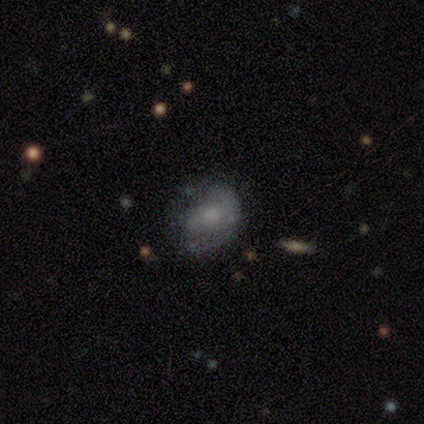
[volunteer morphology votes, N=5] This is likely a featured or disk galaxy (60%). It is clearly not viewed edge-on (100%). Bar: likely weak (67%). Spiral arm pattern: likely yes (67%). Spiral arm count: clearly 2 (100%). Spiral winding: possibly medium (50%, tied with loose). Central bulge: likely moderate (67%). Merging: likely none (75%).